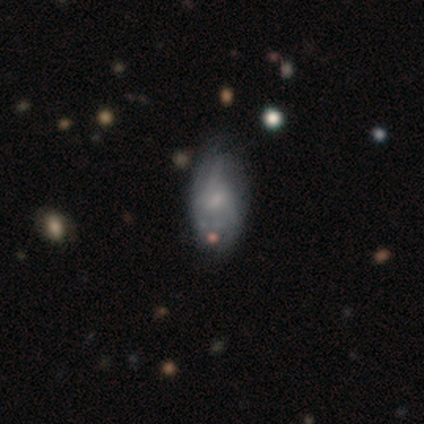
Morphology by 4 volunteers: Smooth or featured?
  - smooth: 50% * (tied)
  - featured or disk: 50% * (tied)
  - star or artifact: 0%
How rounded?
  - in between: 100% *
  - round: 0%
  - cigar-shaped: 0%
Merging?
  - none: 50% *
  - minor disturbance: 25%
  - major disturbance: 25%
  - merger: 0%